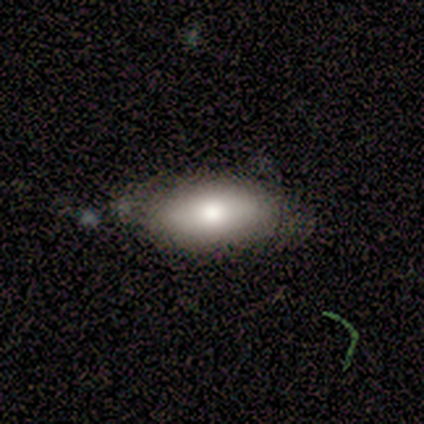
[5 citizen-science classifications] smooth-or-featured: smooth: 60% | featured or disk: 40% | star or artifact: 0%
  how-rounded: in between: 100% | round: 0% | cigar-shaped: 0%
  merging: none: 60% | minor disturbance: 20% | major disturbance: 20% | merger: 0%